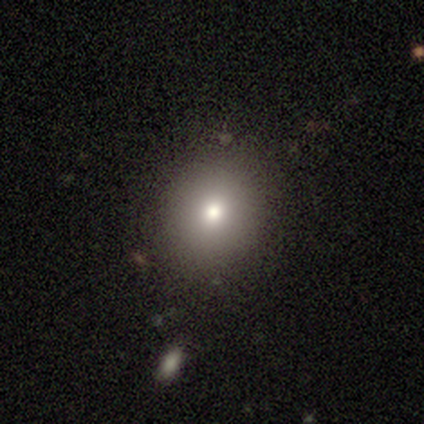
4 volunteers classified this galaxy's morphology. A smooth galaxy with no disk features (75%) that is in between round and cigar-shaped (67%).

Vote fractions:
- Smooth or featured? smooth: 75% / featured or disk: 25% / star or artifact: 0%
- How rounded? in between: 67% / round: 33% / cigar-shaped: 0%
- Merging? none: 100% / minor disturbance: 0% / major disturbance: 0% / merger: 0%